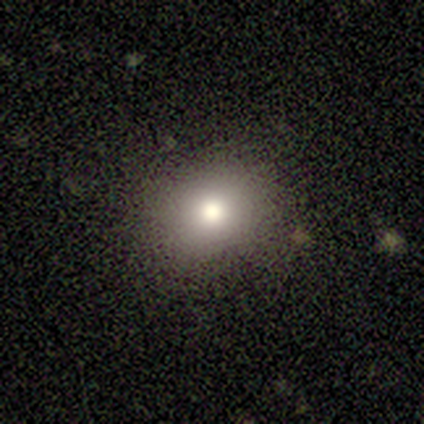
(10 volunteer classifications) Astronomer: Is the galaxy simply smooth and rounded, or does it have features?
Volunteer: smooth — 70%.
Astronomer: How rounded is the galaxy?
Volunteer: round — 71%.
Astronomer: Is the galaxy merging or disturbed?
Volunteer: none — 100%.